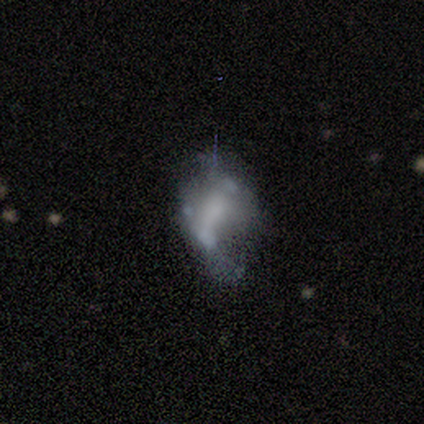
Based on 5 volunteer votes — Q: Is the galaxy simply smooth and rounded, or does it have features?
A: featured or disk — 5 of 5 (100%).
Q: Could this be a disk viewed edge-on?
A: no — 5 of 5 (100%).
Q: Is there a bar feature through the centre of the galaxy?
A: no — 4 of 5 (80%).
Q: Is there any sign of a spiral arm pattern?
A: no — 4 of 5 (80%).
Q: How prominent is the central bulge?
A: none — 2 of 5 (40%).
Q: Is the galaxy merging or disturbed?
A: none — 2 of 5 (40%, tied with major disturbance).